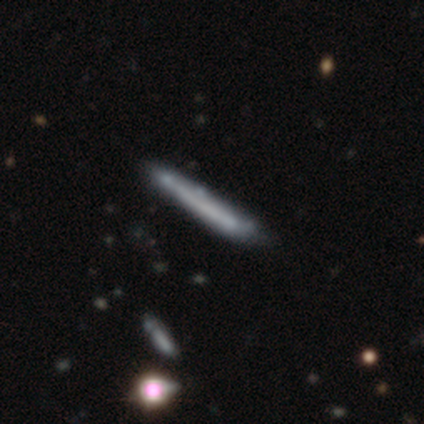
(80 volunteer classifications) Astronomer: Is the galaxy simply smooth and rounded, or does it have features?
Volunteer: smooth — 54% (runner-up: featured or disk, 45%).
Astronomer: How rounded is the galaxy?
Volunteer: cigar-shaped — 100%.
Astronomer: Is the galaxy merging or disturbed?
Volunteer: none — 32% (runner-up: minor disturbance, 16%).